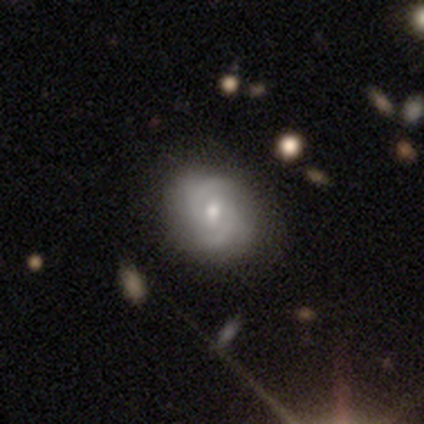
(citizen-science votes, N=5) Q: Smooth or featured?
A: featured or disk (60%); runner-up: star or artifact (40%)
Q: Edge-on disk?
A: no (100%)
Q: Bar?
A: weak (67%); runner-up: no (33%)
Q: Spiral arms?
A: yes (100%)
Q: Spiral winding?
A: medium (100%)
Q: Spiral arm count?
A: 2 (100%)
Q: Bulge size?
A: moderate (67%); runner-up: small (33%)
Q: Merging?
A: minor disturbance (67%); runner-up: none (33%)